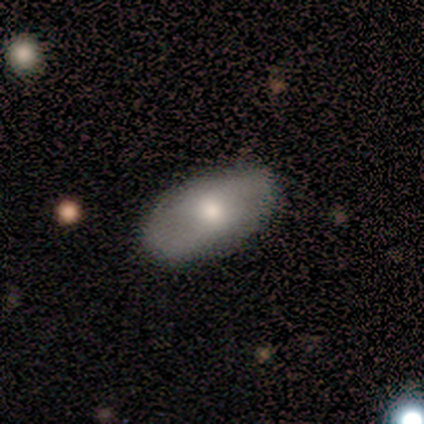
This is marginally a smooth galaxy (40%, tied with featured or disk). How rounded: clearly in between (100%). Merging: clearly none (100%).